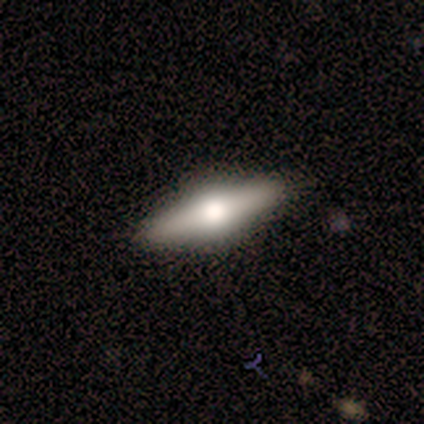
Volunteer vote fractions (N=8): smooth-or-featured: featured or disk: 75% | smooth: 25% | star or artifact: 0%
  disk-edge-on: yes: 83% | no: 17%
    edge-on-bulge: rounded: 100% | boxy: 0% | none: 0%
  merging: none: 88% | merger: 12% | minor disturbance: 0% | major disturbance: 0%